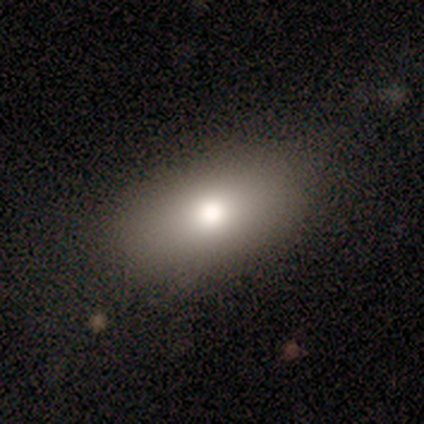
Volunteers were most divided on "smooth or featured": smooth: 57%, featured or disk: 43%, star or artifact: 0%. More confident: how rounded — in between (100%); merging — none (86%).